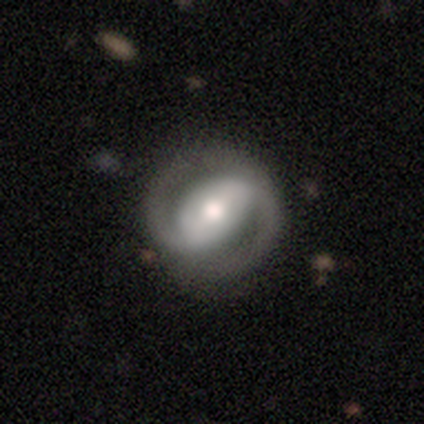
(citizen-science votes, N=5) A featured or disk galaxy (80%) with a strong bar (75%), 2 (75%) tight (75%) spiral arms (100%) and a moderate central bulge (75%). Merging: none (100%).